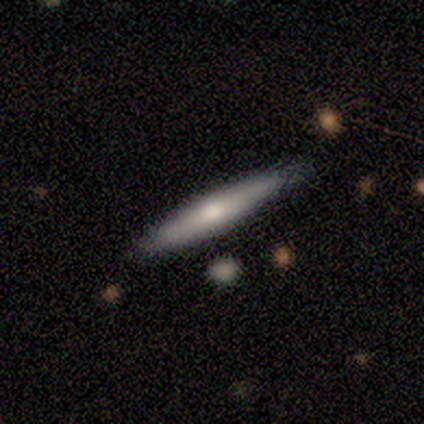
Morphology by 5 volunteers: Volunteers were most divided on "smooth or featured": smooth: 60%, featured or disk: 40%, star or artifact: 0%. More confident: how rounded — cigar-shaped (100%); merging — none (100%).